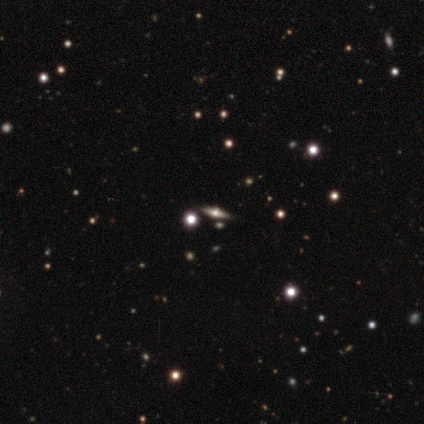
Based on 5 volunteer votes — Overall: featured or disk (40%, tied with star or artifact). Edge-on disk: yes (100%). Edge-on bulge: rounded (100%). Merging: none (100%).